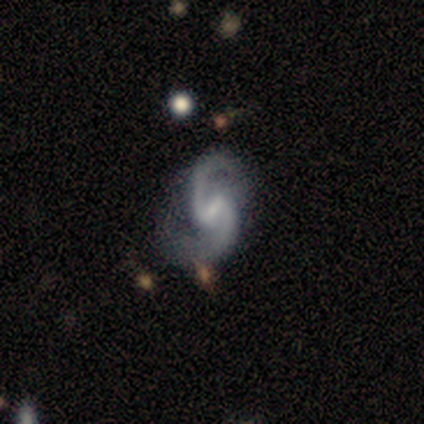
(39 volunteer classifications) Morphology: type=featured or disk (97%); edge-on=no (100%); bar=weak (68%); spiral arms=yes (97%); winding=medium (68%); arm count=2 (97%); bulge=none (45%); merging=none (50%).